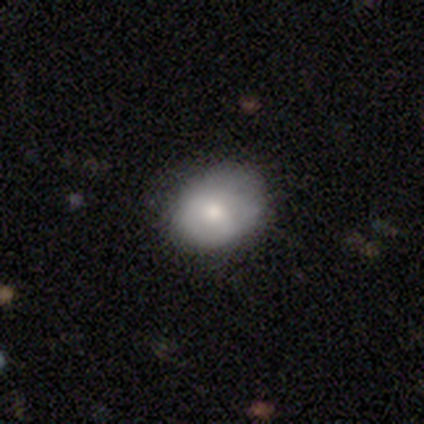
This appears to be a smooth galaxy with no disk features (74%) that is in between round and cigar-shaped (50%). Merging: none (71%).